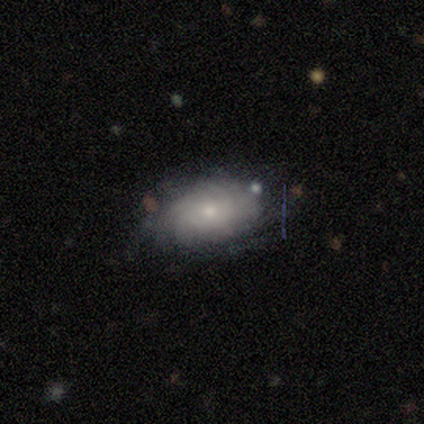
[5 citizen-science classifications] Smooth or featured: smooth — 80% (featured or disk — 20%)
How rounded: in between — 100%
Merging: none — 60% (minor disturbance — 40%)